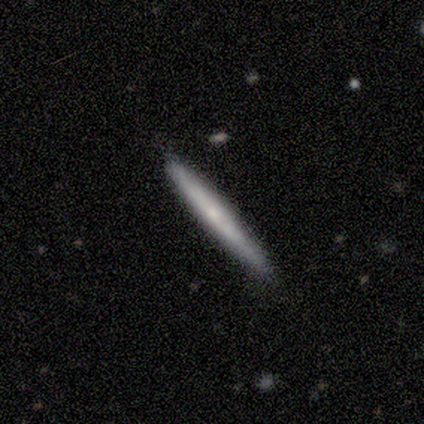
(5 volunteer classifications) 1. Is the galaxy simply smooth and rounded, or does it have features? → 40% featured or disk (tied), 40% star or artifact (tied), 20% smooth.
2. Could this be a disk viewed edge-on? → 100% yes, 0% no.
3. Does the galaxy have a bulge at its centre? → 50% none (tied), 50% rounded (tied), 0% boxy.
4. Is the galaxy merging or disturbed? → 100% none, 0% minor disturbance, 0% major disturbance, 0% merger.